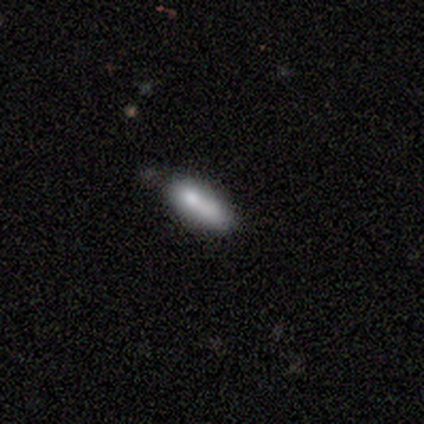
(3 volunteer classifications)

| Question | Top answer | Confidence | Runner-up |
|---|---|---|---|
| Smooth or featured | smooth | 67% | featured or disk (33%) |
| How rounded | cigar-shaped | 100% | — |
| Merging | none | 100% | — |